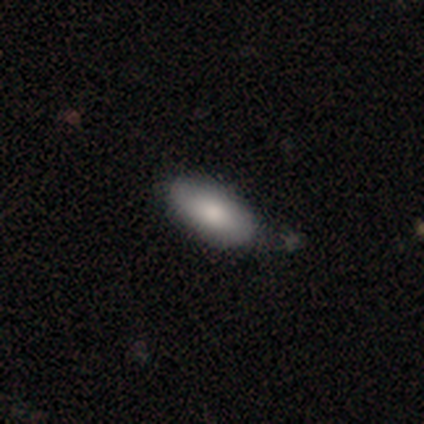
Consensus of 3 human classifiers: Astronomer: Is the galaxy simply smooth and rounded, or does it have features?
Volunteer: smooth — 100%.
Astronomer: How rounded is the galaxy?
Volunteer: in between — 100%.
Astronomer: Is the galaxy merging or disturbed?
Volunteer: none — 100%.